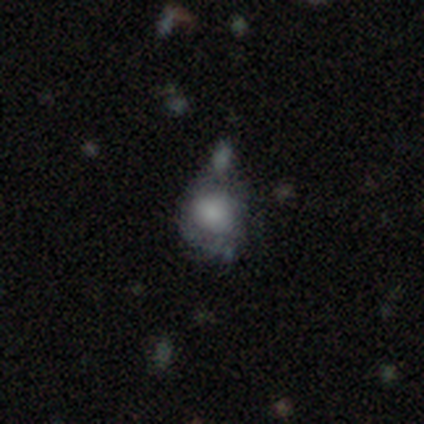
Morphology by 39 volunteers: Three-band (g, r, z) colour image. It shows a smooth galaxy with no disk features (82%) that is round (59%). Merging: none (37%).